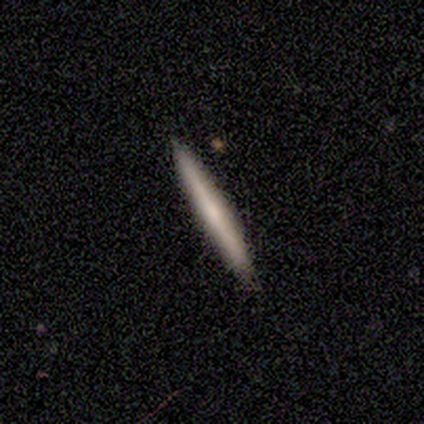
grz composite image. It shows a smooth galaxy with no disk features (56%) that is cigar-shaped (96%). Merging: none (95%).